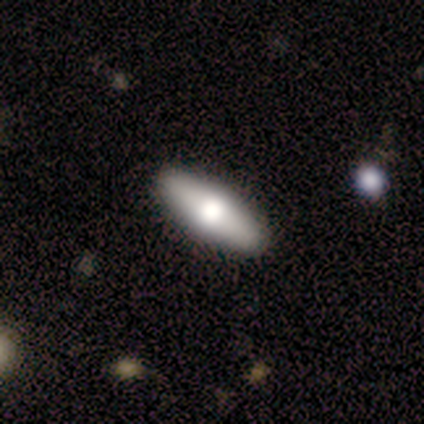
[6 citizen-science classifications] Smooth or featured?
  - smooth: 83% *
  - featured or disk: 17%
  - star or artifact: 0%
How rounded?
  - in between: 80% *
  - cigar-shaped: 20%
  - round: 0%
Merging?
  - none: 100% *
  - minor disturbance: 0%
  - major disturbance: 0%
  - merger: 0%